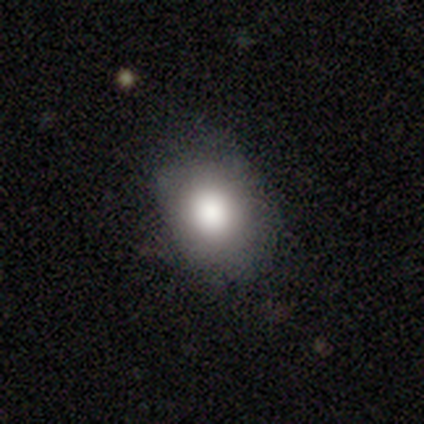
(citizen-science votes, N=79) Smooth or featured? 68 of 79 (86%) said smooth. How rounded? 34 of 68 (50%) said in between. Merging? 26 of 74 (35%) said none.